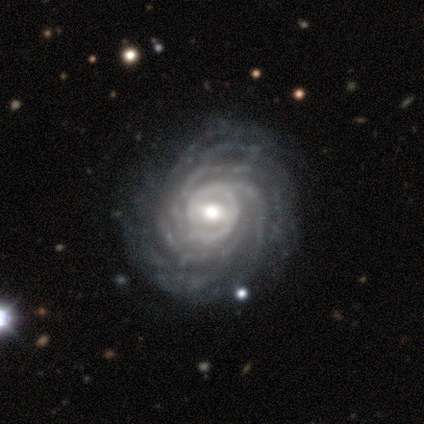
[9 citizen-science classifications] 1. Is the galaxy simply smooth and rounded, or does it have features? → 89% featured or disk, 11% star or artifact, 0% smooth.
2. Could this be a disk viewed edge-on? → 88% no, 12% yes.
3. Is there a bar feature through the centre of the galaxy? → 43% strong (tied), 43% weak (tied), 14% no.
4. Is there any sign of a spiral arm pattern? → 100% yes, 0% no.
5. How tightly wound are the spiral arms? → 86% tight, 14% medium, 0% loose.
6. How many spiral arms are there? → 86% more than 4, 14% can't tell, 0% 1, 0% 2, 0% 3, 0% 4.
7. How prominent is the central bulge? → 43% moderate (tied), 43% small (tied), 14% large, 0% dominant, 0% none.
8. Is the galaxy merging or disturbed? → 100% none, 0% minor disturbance, 0% major disturbance, 0% merger.